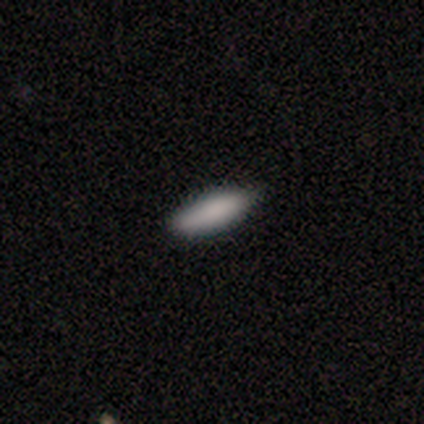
A smooth galaxy with no disk features (75%) that is cigar-shaped (67%).

Vote fractions:
- Smooth or featured? smooth: 75% / featured or disk: 25% / star or artifact: 0%
- How rounded? cigar-shaped: 67% / in between: 33% / round: 0%
- Merging? none: 50% (tied) / minor disturbance: 50% (tied) / major disturbance: 0% / merger: 0%